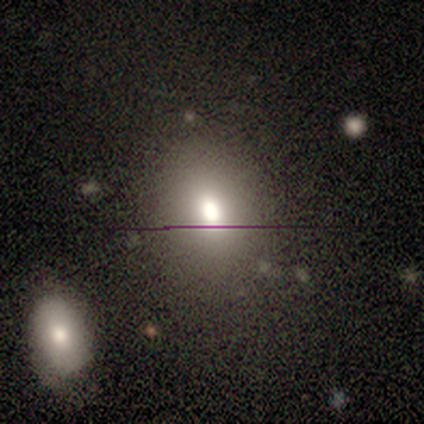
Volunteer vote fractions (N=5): smooth-or-featured: smooth: 100% | featured or disk: 0% | star or artifact: 0%
  how-rounded: round: 60% | in between: 40% | cigar-shaped: 0%
  merging: none: 100% | minor disturbance: 0% | major disturbance: 0% | merger: 0%